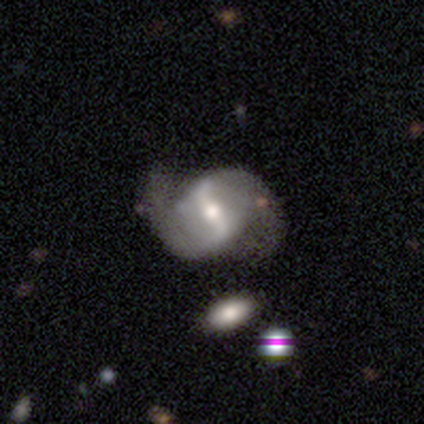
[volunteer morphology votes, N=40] smooth_or_featured: featured or disk (p=0.95) [alt: smooth p=0.03]
disk_edge_on: no (p=0.95) [alt: yes p=0.05]
bar: strong (p=0.75) [alt: weak p=0.25]
has_spiral_arms: yes (p=0.97) [alt: no p=0.03]
spiral_winding: loose (p=0.63) [alt: medium p=0.31]
spiral_arm_count: 2 (p=0.91) [alt: can't tell p=0.09]
bulge_size: moderate (p=0.69) [alt: large p=0.14]
merging: none (p=0.64) [alt: major disturbance p=0.15]